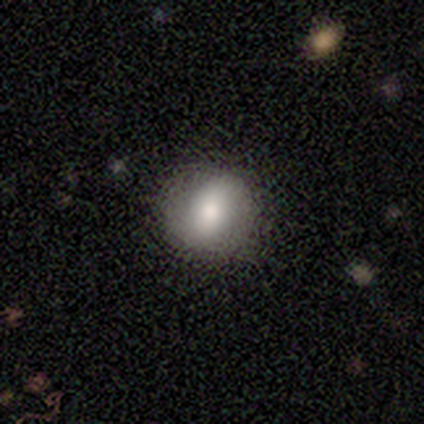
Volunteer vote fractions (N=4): A smooth galaxy with no disk features (100%) that is round (75%). Merging: none (75%).